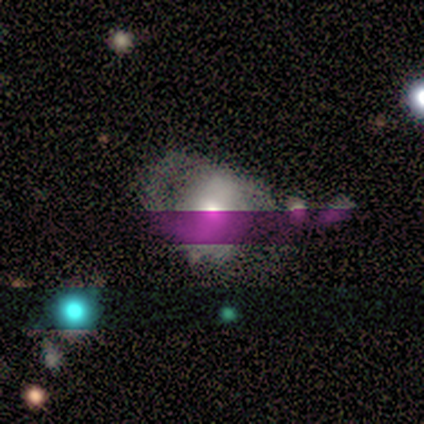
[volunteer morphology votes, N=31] smooth_or_featured: featured or disk (p=0.45) [alt: smooth p=0.29]
disk_edge_on: no (p=0.93) [alt: yes p=0.07]
bar: no (p=0.69) [alt: strong p=0.23]
has_spiral_arms: yes (p=0.54) [alt: no p=0.46]
spiral_winding: medium (p=0.57) [alt: tight p=0.43]
spiral_arm_count: 2 (p=0.57) [alt: can't tell p=0.43]
bulge_size: large (p=0.38) [alt: moderate p=0.31]
merging: none (p=0.35) [alt: minor disturbance p=0.26]